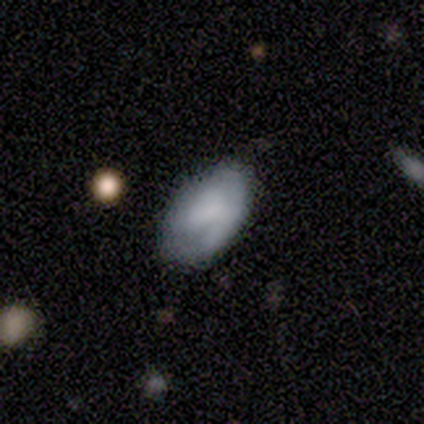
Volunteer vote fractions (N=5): A smooth galaxy with no disk features (60%) that is in between round and cigar-shaped (100%). Merging: none (80%).